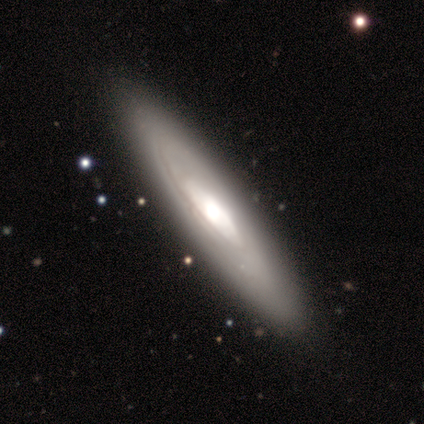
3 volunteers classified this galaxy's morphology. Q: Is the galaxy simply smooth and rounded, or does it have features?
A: featured or disk — 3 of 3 (100%).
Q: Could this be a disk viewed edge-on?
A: yes — 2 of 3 (67%).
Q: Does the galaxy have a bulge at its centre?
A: none — 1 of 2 (50%, tied with rounded).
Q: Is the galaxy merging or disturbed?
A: none — 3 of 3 (100%).